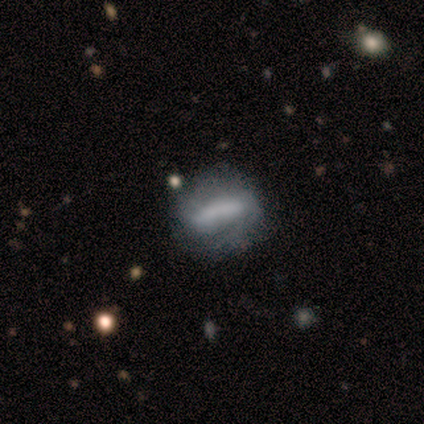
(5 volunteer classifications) Smooth or featured: featured or disk — 60% (smooth — 20%)
Edge-on disk: no — 100%
Bar: strong — 100%
Spiral arms: yes — 67% (no — 33%)
Spiral winding: medium — 100%
Spiral arm count: 2 — 50% (tied with can't tell — 50%)
Bulge size: none — 100%
Merging: none — 50% (minor disturbance — 25%)